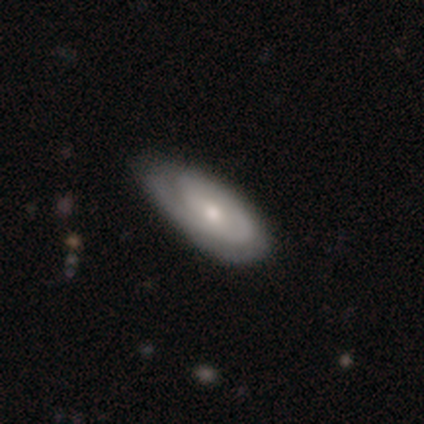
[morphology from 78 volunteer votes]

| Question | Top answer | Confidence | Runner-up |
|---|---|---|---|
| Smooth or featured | featured or disk | 74% | smooth (24%) |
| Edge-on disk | no | 98% | yes (2%) |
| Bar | no | 77% | weak (21%) |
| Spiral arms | yes | 88% | no (12%) |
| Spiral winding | tight | 60% | medium (30%) |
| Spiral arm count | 1 | 42% | 2 (34%) |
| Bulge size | small | 51% | moderate (44%) |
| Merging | none | 39% | minor disturbance (10%) |